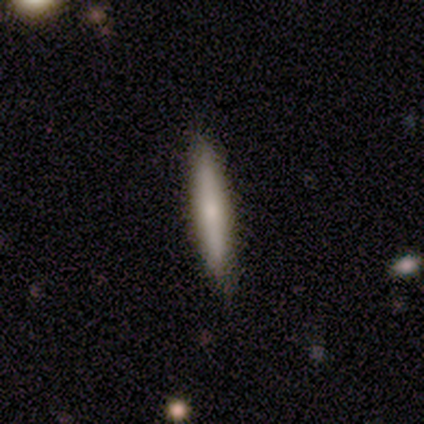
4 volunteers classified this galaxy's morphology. Smooth or featured? 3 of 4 (75%) said smooth. How rounded? 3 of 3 (100%) said cigar-shaped. Merging? 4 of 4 (100%) said none.